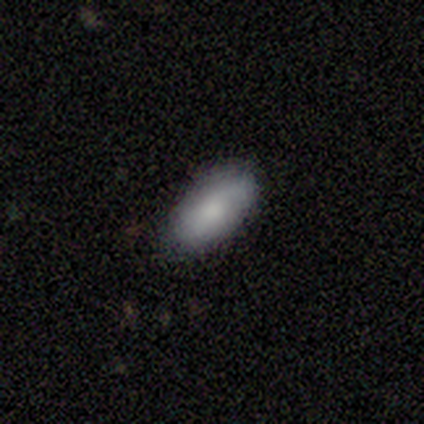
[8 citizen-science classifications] Smooth or featured: smooth — 100%
How rounded: in between — 75% (cigar-shaped — 25%)
Merging: none — 75% (minor disturbance — 25%)